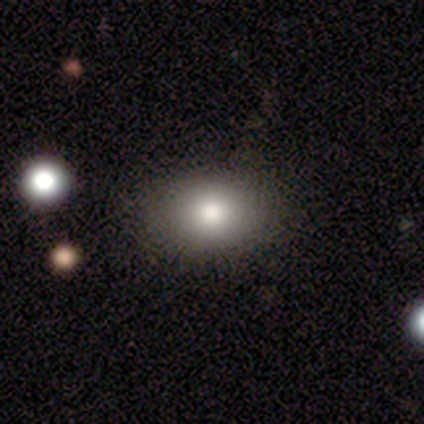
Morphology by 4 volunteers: Smooth or featured?
  - smooth: 75% *
  - featured or disk: 25%
  - star or artifact: 0%
How rounded?
  - in between: 67% *
  - round: 33%
  - cigar-shaped: 0%
Merging?
  - none: 100% *
  - minor disturbance: 0%
  - major disturbance: 0%
  - merger: 0%